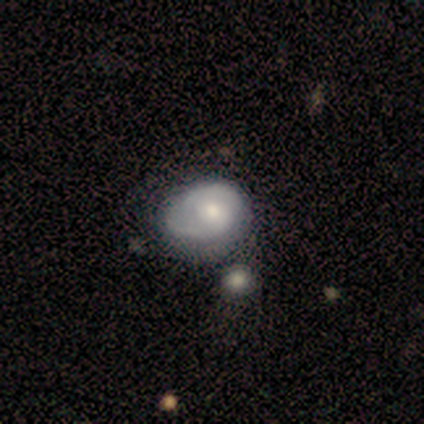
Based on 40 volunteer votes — Smooth or featured?
  - featured or disk: 57% *
  - smooth: 38%
  - star or artifact: 5%
Edge-on disk?
  - no: 100% *
  - yes: 0%
Bar?
  - no: 61% *
  - weak: 30%
  - strong: 9%
Spiral arms?
  - yes: 96% *
  - no: 4%
Spiral winding?
  - tight: 50% *
  - medium: 32%
  - loose: 18%
Spiral arm count?
  - 2: 77% *
  - can't tell: 14%
  - 1: 9%
  - 3: 0%
  - 4: 0%
  - more than 4: 0%
Bulge size?
  - moderate: 61% *
  - small: 39%
  - dominant: 0%
  - large: 0%
  - none: 0%
Merging?
  - none: 29% *
  - major disturbance: 21%
  - minor disturbance: 18%
  - merger: 13%